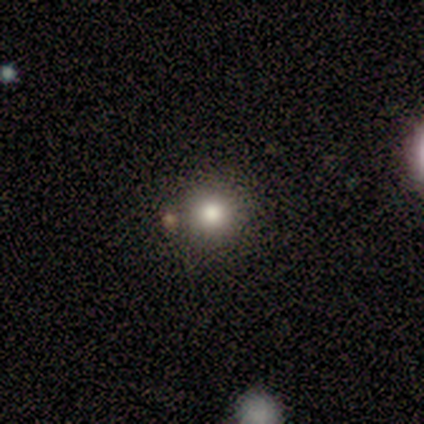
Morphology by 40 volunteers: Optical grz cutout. It shows a smooth galaxy with no disk features (72%) that is round (90%). Merging: none (71%).